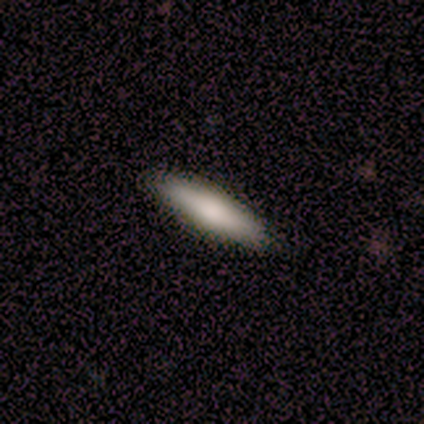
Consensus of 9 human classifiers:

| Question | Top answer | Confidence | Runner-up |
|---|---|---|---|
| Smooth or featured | smooth | 89% | featured or disk (11%) |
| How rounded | cigar-shaped | 62% | in between (38%) |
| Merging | none | 89% | major disturbance (11%) |